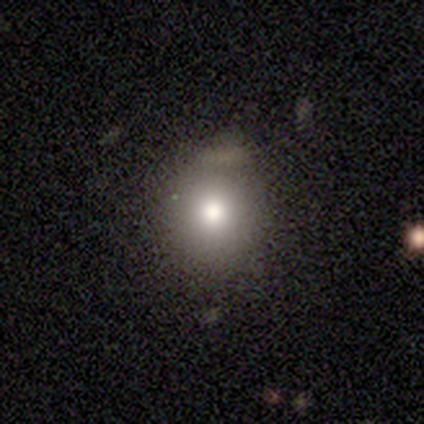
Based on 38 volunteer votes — Morphology: type=smooth (76%); roundness=round (86%); merging=none (66%).